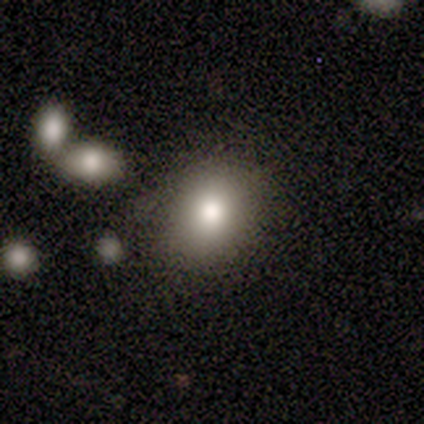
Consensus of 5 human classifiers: Smooth or featured? 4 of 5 (80%) said smooth. How rounded? 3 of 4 (75%) said in between. Merging? 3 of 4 (75%) said none.